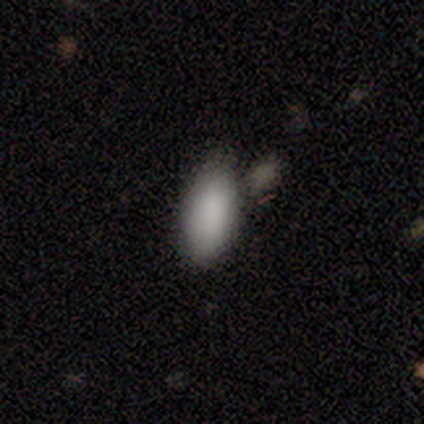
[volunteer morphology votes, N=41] smooth_or_featured: smooth (p=0.90) [alt: featured or disk p=0.07]
how_rounded: in between (p=0.92) [alt: cigar-shaped p=0.05]
merging: none (p=0.42) [alt: minor disturbance p=0.28]